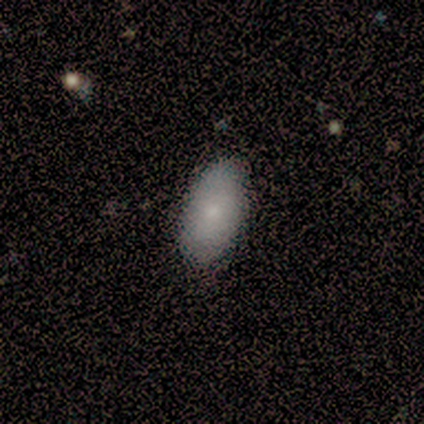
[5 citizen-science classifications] Smooth or featured?
  - smooth: 80% *
  - featured or disk: 20%
  - star or artifact: 0%
How rounded?
  - in between: 100% *
  - round: 0%
  - cigar-shaped: 0%
Merging?
  - none: 100% *
  - minor disturbance: 0%
  - major disturbance: 0%
  - merger: 0%